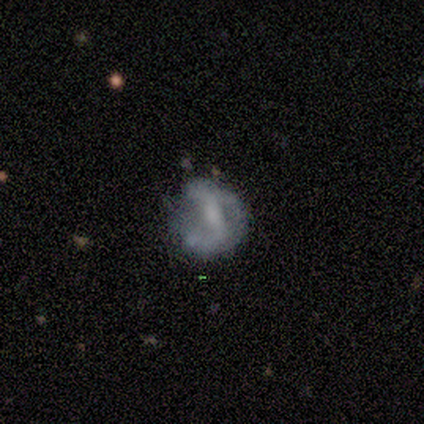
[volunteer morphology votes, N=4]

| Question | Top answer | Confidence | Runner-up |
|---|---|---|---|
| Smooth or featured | featured or disk | 75% | smooth (25%) |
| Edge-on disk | no | 100% | — |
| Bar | no | 67% | weak (33%) |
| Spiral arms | no | 67% | yes (33%) |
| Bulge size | none | 67% | small (33%) |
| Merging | major disturbance | 50% | none (25%) |